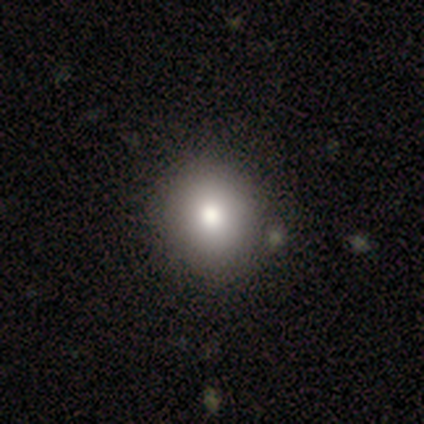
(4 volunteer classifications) smooth 75%, star or artifact 25%, featured or disk 0%. Down the decision tree: how rounded — round (67%); merging — none (100%).